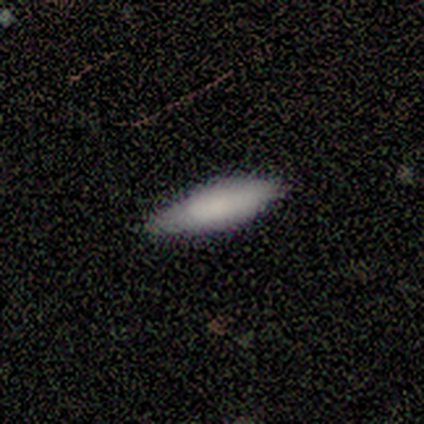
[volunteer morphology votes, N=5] smooth-or-featured: smooth: 80% | featured or disk: 20% | star or artifact: 0%
  how-rounded: cigar-shaped: 75% | in between: 25% | round: 0%
  merging: none: 80% | minor disturbance: 20% | major disturbance: 0% | merger: 0%